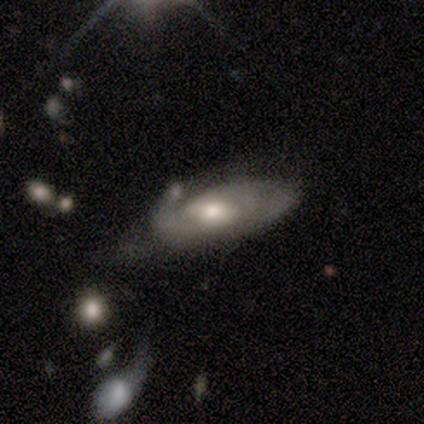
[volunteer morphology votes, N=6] A featured or disk galaxy (67%) with a weak bar (50%, tied with no), 2 (50%, tied with can't tell) medium (100%) spiral arms (50%, tied with no) and a moderate central bulge (50%, tied with small).

Vote fractions:
- Smooth or featured? featured or disk: 67% / smooth: 33% / star or artifact: 0%
- Edge-on disk? no: 100% / yes: 0%
- Bar? weak: 50% (tied) / no: 50% (tied) / strong: 0%
- Spiral arms? yes: 50% (tied) / no: 50% (tied)
- Spiral winding? medium: 100% / tight: 0% / loose: 0%
- Spiral arm count? 2: 50% (tied) / can't tell: 50% (tied) / 1: 0% / 3: 0% / 4: 0% / more than 4: 0%
- Bulge size? moderate: 50% (tied) / small: 50% (tied) / dominant: 0% / large: 0% / none: 0%
- Merging? major disturbance: 50% / minor disturbance: 33% / none: 17% / merger: 0%